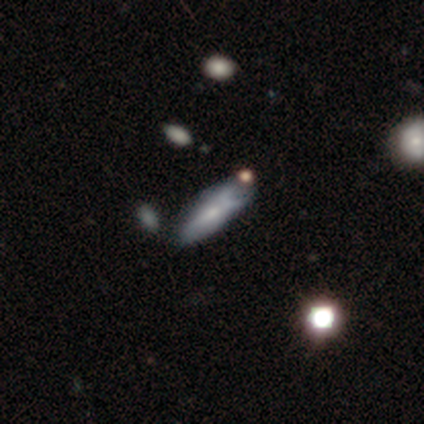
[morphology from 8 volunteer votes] Q: Smooth or featured?
A: smooth (62%); runner-up: featured or disk (25%)
Q: How rounded?
A: cigar-shaped (60%); runner-up: in between (40%)
Q: Merging?
A: none (43%); runner-up: minor disturbance (29%)